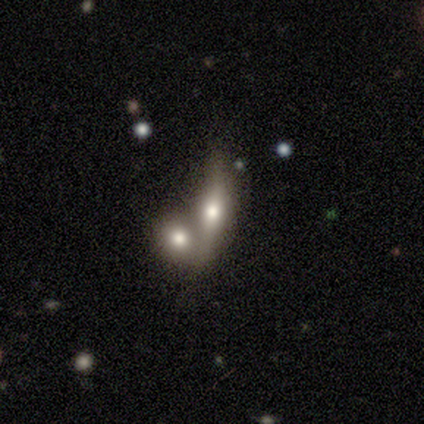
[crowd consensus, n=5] Smooth or featured? 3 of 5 (60%) said smooth. How rounded? 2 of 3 (67%) said in between. Merging? 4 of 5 (80%) said merger.